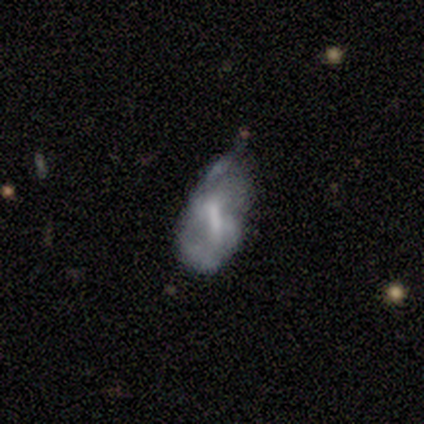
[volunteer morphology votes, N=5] This appears to be a smooth galaxy with no disk features (60%) that is in between round and cigar-shaped (100%). Merging: minor disturbance (80%).